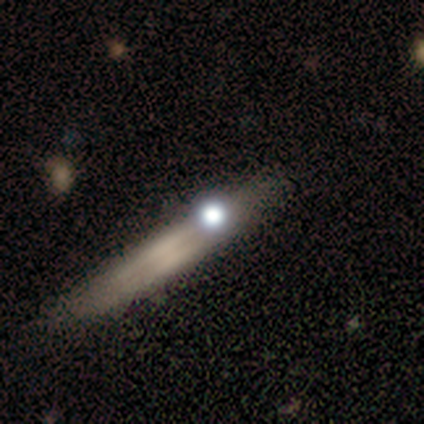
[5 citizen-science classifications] Smooth or featured?
  - smooth: 40% * (tied)
  - star or artifact: 40% * (tied)
  - featured or disk: 20%
How rounded?
  - cigar-shaped: 100% *
  - round: 0%
  - in between: 0%
Merging?
  - major disturbance: 67% *
  - none: 33%
  - minor disturbance: 0%
  - merger: 0%